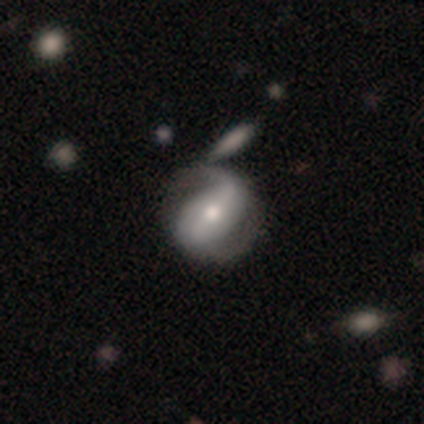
smooth-or-featured: featured or disk: 80% | star or artifact: 20% | smooth: 0%
  disk-edge-on: no: 100% | yes: 0%
    bar: strong: 75% | weak: 25% | no: 0%
    has-spiral-arms: yes: 75% | no: 25%
      spiral-winding: tight: 67% | medium: 33% | loose: 0%
      spiral-arm-count: 2: 100% | 1: 0% | 3: 0% | 4: 0% | more than 4: 0% | can't tell: 0%
    bulge-size: moderate: 50% | dominant: 25% | large: 25% | small: 0% | none: 0%
  merging: none: 75% | merger: 25% | minor disturbance: 0% | major disturbance: 0%